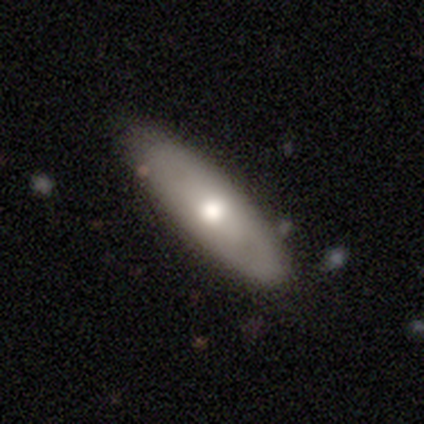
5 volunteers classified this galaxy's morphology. Smooth or featured? 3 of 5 (60%) said smooth. How rounded? 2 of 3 (67%) said cigar-shaped. Merging? 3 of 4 (75%) said none.